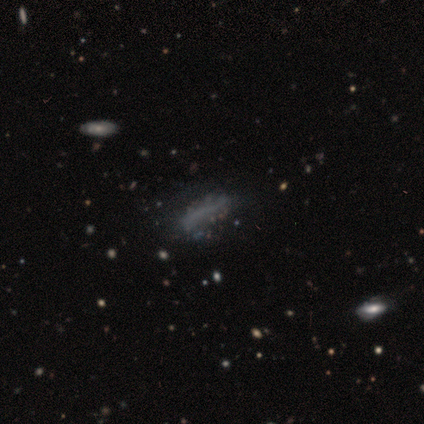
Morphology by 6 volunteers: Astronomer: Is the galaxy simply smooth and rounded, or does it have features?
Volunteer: star or artifact — 50% (runner-up: featured or disk, 33%).